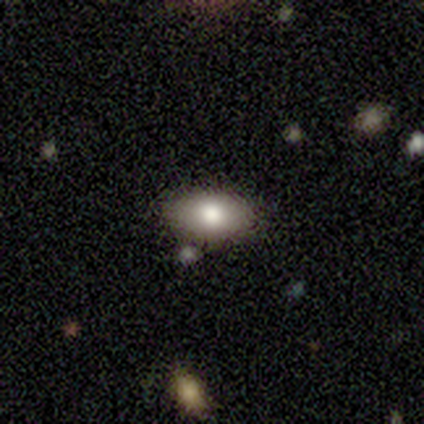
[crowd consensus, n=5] Overall: smooth (80%). How rounded: in between (100%). Merging: none (80%).